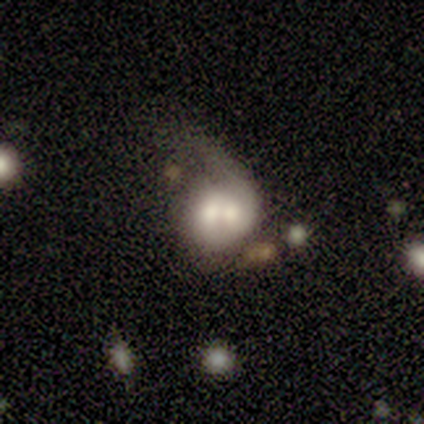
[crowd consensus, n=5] Volunteers were most divided on "smooth or featured": smooth: 60%, featured or disk: 40%, star or artifact: 0%. More confident: how rounded — round (100%); merging — merger (100%).